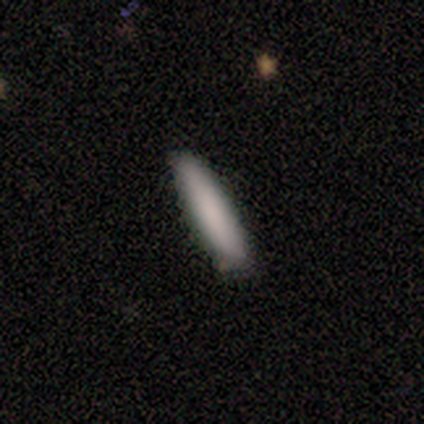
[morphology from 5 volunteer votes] smooth_or_featured: smooth (p=1.00)
how_rounded: in between (p=0.60) [alt: cigar-shaped p=0.40]
merging: none (p=1.00)